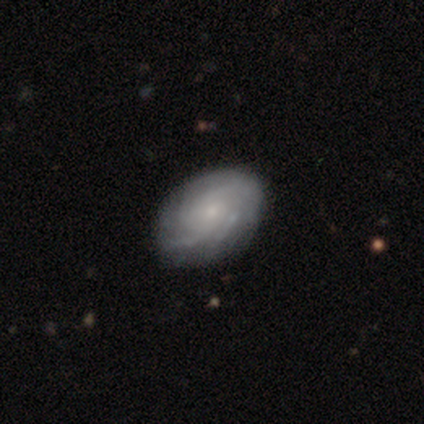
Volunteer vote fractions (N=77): Overall: featured or disk (79%). Edge-on disk: no (98%). Bar: no (92%). Spiral arms: yes (93%). Spiral arm count: can't tell (55%; 3 16%). Spiral winding: tight (68%; medium 30%). Bulge size: small (73%). Merging: none (45%).